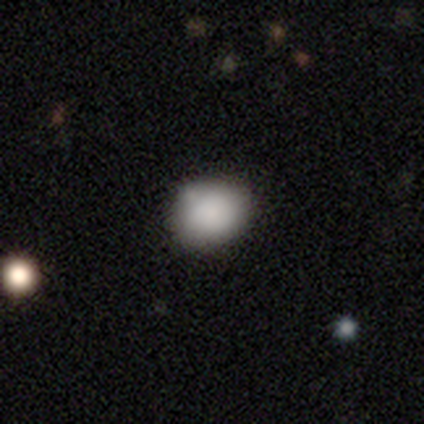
smooth 67%, featured or disk 33%, star or artifact 0%. Down the decision tree: how rounded — round (100%); merging — none (100%).